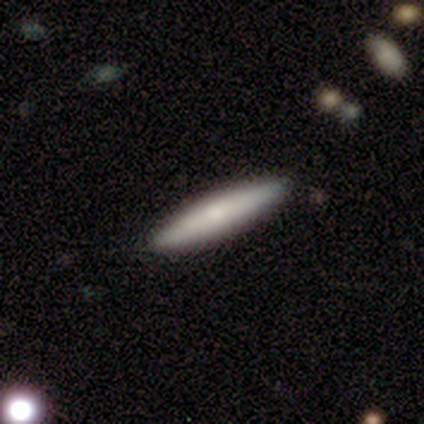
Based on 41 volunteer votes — A smooth galaxy with no disk features (66%) that is cigar-shaped (100%).

Vote fractions:
- Smooth or featured? smooth: 66% / featured or disk: 29% / star or artifact: 5%
- How rounded? cigar-shaped: 100% / round: 0% / in between: 0%
- Merging? none: 90% / minor disturbance: 8% / major disturbance: 3% / merger: 0%